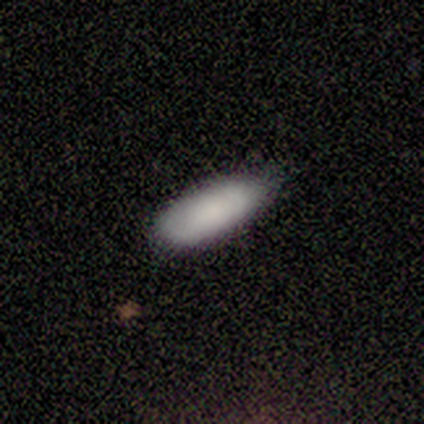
Smooth or featured: smooth — 100%
How rounded: in between — 50% (tied with cigar-shaped — 50%)
Merging: none — 50% (tied with minor disturbance — 50%)